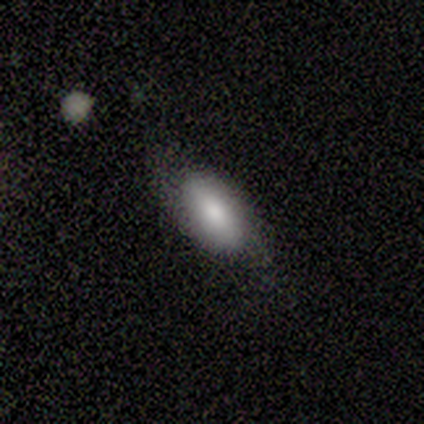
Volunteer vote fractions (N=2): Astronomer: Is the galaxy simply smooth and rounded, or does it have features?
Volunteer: smooth — 50%, tied with featured or disk at 50%.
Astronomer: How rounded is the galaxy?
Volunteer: in between — 100%.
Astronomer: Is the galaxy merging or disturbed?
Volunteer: none — 100%.